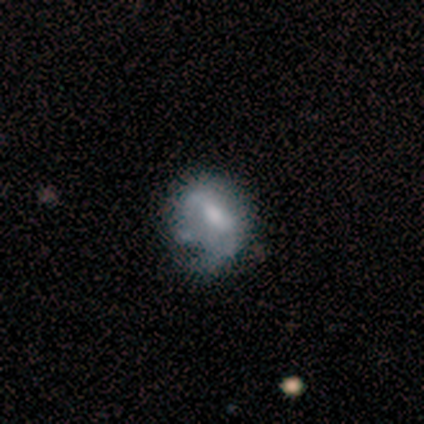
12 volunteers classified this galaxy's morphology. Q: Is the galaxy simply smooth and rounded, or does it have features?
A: featured or disk — 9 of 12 (75%).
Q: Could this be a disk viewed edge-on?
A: no — 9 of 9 (100%).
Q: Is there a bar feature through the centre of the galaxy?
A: weak — 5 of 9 (56%).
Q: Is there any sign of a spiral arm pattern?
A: no — 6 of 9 (67%).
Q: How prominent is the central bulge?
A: moderate — 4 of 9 (44%).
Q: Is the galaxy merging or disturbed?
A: minor disturbance — 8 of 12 (67%).